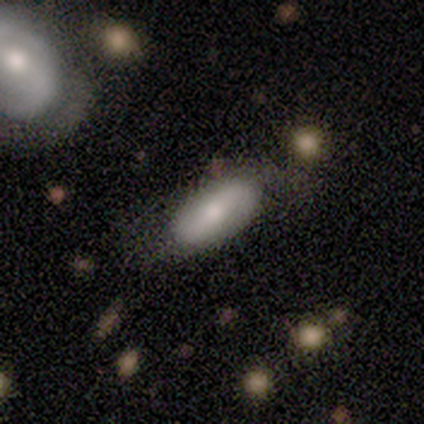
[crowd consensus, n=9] This is likely a smooth galaxy (78%). How rounded: clearly in between (86%). Merging: possibly none (56%).